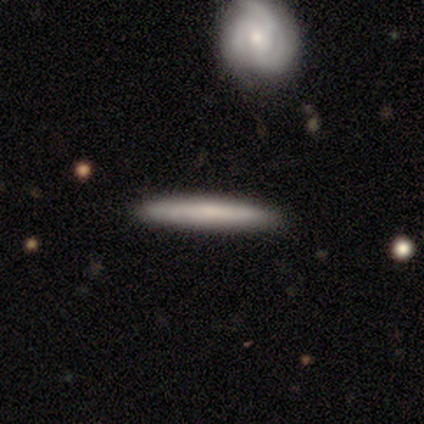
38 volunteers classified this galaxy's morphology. A smooth galaxy with no disk features (63%) that is cigar-shaped (96%).

Vote fractions:
- Smooth or featured? smooth: 63% / featured or disk: 29% / star or artifact: 8%
- How rounded? cigar-shaped: 96% / in between: 4% / round: 0%
- Merging? none: 97% / minor disturbance: 3% / major disturbance: 0% / merger: 0%